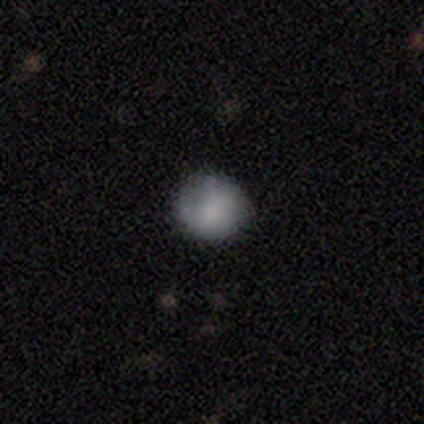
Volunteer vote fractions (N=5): Overall: smooth (80%). How rounded: round (75%). Merging: none (80%).